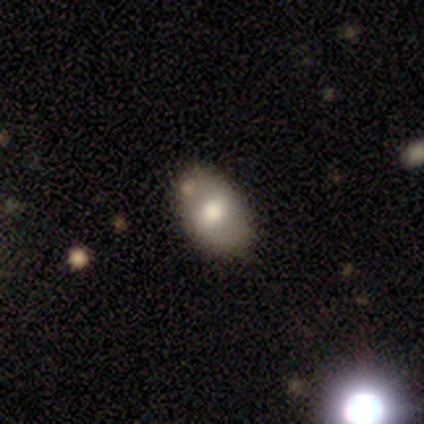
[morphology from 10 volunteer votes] type=smooth (80%); roundness=in between (88%); merging=none (78%).